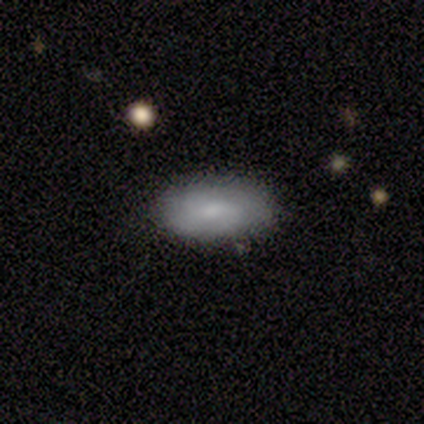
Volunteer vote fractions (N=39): This appears to be a smooth galaxy with no disk features (64%) that is in between round and cigar-shaped (92%). Merging: none (66%).